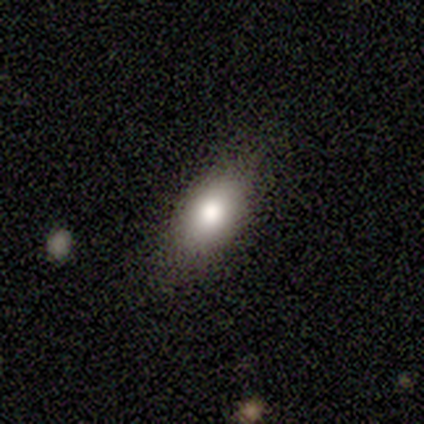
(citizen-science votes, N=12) Smooth or featured? 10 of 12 (83%) said smooth. How rounded? 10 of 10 (100%) said in between. Merging? 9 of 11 (82%) said none.